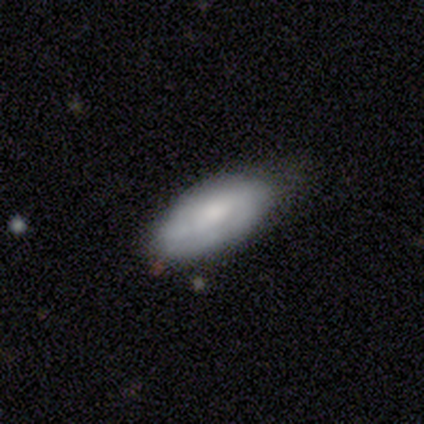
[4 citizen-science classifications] Morphology: type=smooth (75%); roundness=in between (67%); merging=minor disturbance (67%).